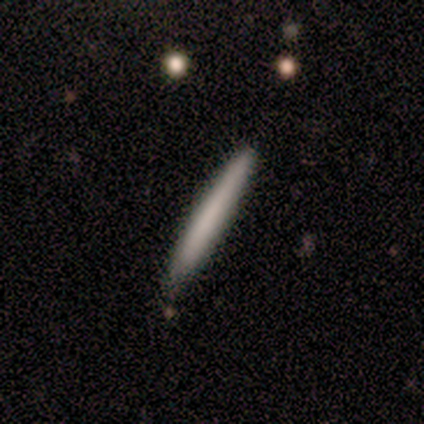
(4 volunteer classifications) Smooth or featured? smooth (75%)
How rounded? cigar-shaped (100%)
Merging? none (100%)